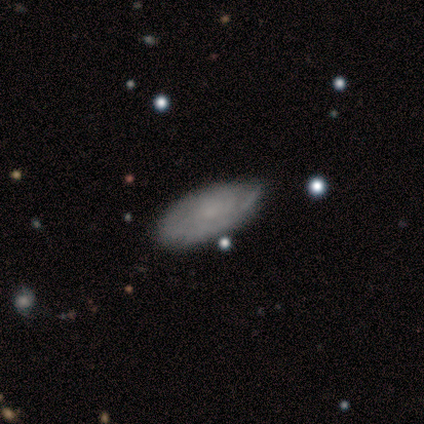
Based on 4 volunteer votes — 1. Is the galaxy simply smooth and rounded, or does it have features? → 75% featured or disk, 25% smooth, 0% star or artifact.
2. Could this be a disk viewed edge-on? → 100% no, 0% yes.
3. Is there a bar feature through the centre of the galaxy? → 100% no, 0% strong, 0% weak.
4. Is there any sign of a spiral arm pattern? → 100% yes, 0% no.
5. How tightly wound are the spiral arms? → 100% tight, 0% medium, 0% loose.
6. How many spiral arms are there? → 67% can't tell, 33% 2, 0% 1, 0% 3, 0% 4, 0% more than 4.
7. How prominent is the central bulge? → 67% none, 33% moderate, 0% dominant, 0% large, 0% small.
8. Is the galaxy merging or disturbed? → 50% none (tied), 50% minor disturbance (tied), 0% major disturbance, 0% merger.